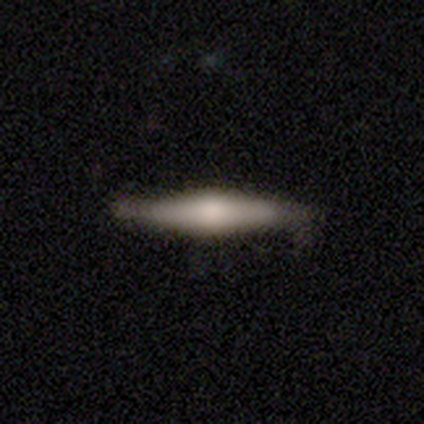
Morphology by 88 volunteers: smooth 51%, featured or disk 47%, star or artifact 2%. Down the decision tree: how rounded — cigar-shaped (93%); merging — none (71%).